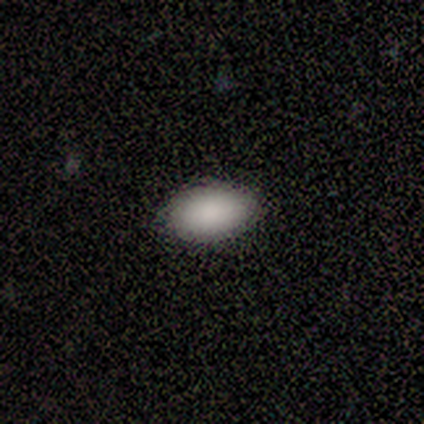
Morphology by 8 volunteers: A smooth galaxy with no disk features (100%) that is in between round and cigar-shaped (100%). Merging: none (100%).